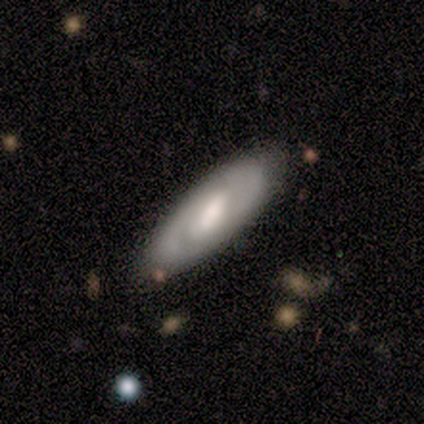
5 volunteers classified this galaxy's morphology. smooth-or-featured: featured or disk: 100% | smooth: 0% | star or artifact: 0%
  disk-edge-on: no: 80% | yes: 20%
    bar: no: 50% | strong: 25% | weak: 25%
    has-spiral-arms: yes: 100% | no: 0%
      spiral-winding: tight: 50% | medium: 25% | loose: 25%
      spiral-arm-count: 2: 100% | 1: 0% | 3: 0% | 4: 0% | more than 4: 0% | can't tell: 0%
    bulge-size: moderate: 50% | small: 25% | none: 25% | dominant: 0% | large: 0%
  merging: none: 100% | minor disturbance: 0% | major disturbance: 0% | merger: 0%